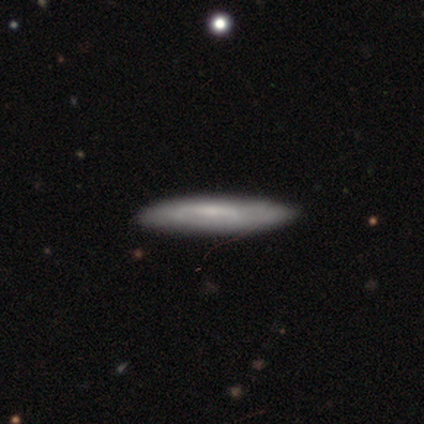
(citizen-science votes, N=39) Smooth or featured?
  - featured or disk: 54% *
  - smooth: 46%
  - star or artifact: 0%
Edge-on disk?
  - yes: 86% *
  - no: 14%
Edge-on bulge?
  - none: 78% *
  - rounded: 17%
  - boxy: 6%
Merging?
  - none: 74% *
  - minor disturbance: 8%
  - major disturbance: 0%
  - merger: 0%